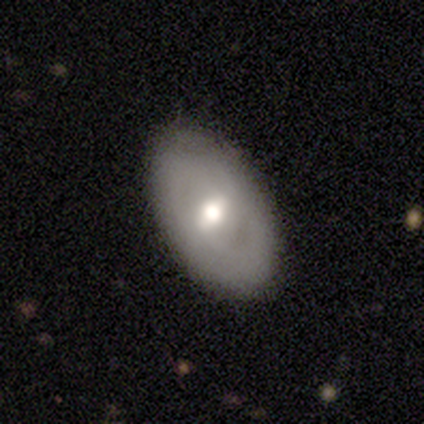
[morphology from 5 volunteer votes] Overall: smooth (60%; featured or disk 40%). How rounded: in between (100%). Merging: none (80%).